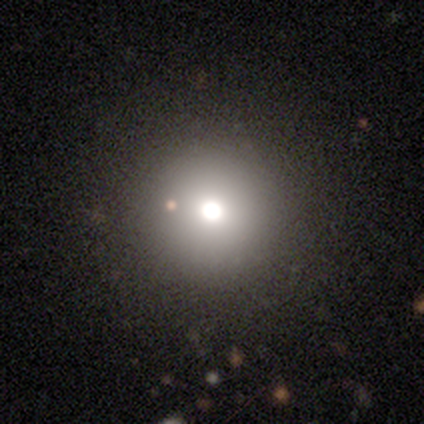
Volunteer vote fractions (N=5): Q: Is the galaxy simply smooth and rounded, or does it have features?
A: smooth — 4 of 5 (80%).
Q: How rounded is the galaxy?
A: round — 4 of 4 (100%).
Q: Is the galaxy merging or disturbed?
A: none — 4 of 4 (100%).